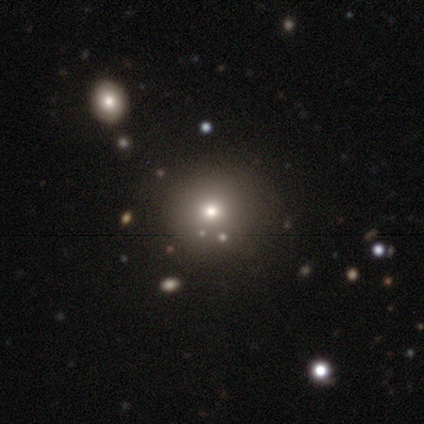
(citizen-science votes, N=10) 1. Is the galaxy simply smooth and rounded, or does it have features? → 50% smooth (tied), 50% star or artifact (tied), 0% featured or disk.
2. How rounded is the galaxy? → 100% round, 0% in between, 0% cigar-shaped.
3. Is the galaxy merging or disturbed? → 100% none, 0% minor disturbance, 0% major disturbance, 0% merger.